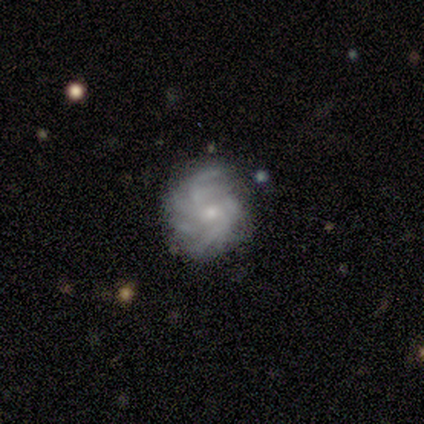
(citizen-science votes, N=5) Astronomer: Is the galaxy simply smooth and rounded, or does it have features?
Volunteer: featured or disk — 100%.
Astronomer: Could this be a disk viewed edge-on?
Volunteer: no — 100%.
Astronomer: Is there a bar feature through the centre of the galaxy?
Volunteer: weak — 60% (runner-up: no, 40%).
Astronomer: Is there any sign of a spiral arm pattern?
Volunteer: yes — 100%.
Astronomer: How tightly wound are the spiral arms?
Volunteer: medium — 60%.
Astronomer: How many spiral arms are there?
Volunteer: more than 4 — 40% (runner-up: 2, 20%).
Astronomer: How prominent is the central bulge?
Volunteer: small — 60% (runner-up: moderate, 40%).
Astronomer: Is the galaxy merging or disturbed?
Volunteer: none — 40% (runner-up: minor disturbance, 20%).